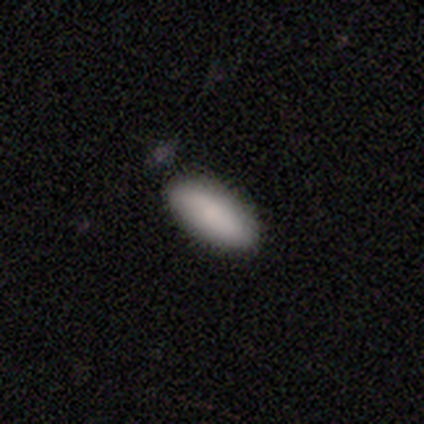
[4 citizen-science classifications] Volunteers were most divided on "how rounded": in between: 75%, cigar-shaped: 25%, round: 0%. More confident: smooth or featured — smooth (100%); merging — none (75%).